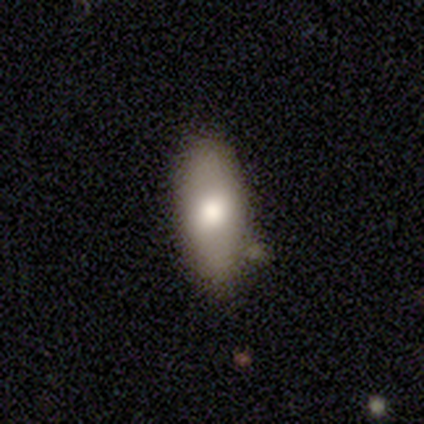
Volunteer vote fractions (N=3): This is clearly a smooth galaxy (100%). How rounded: likely cigar-shaped (67%). Merging: likely none (67%).